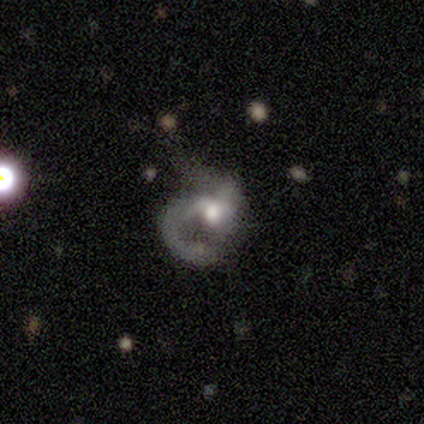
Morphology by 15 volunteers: Volunteers were most divided on "merging" (2-way tie): none: 43%, major disturbance: 43%, minor disturbance: 14%, merger: 0%. More confident: edge-on disk — no (100%); spiral arms — yes (100%); bar — no (92%); smooth or featured — featured or disk (80%); spiral arm count — 1 (75%); bulge size — moderate (75%); spiral winding — medium (50%).